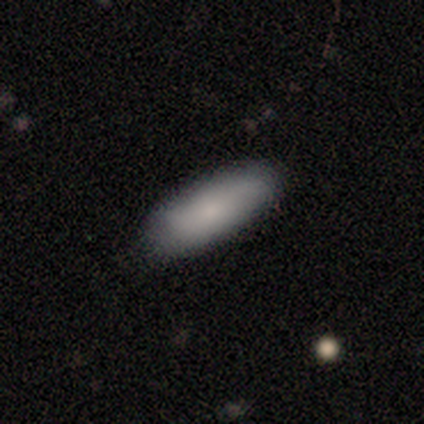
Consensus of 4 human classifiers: Smooth or featured: smooth — 100%
How rounded: in between — 50% (tied with cigar-shaped — 50%)
Merging: none — 100%